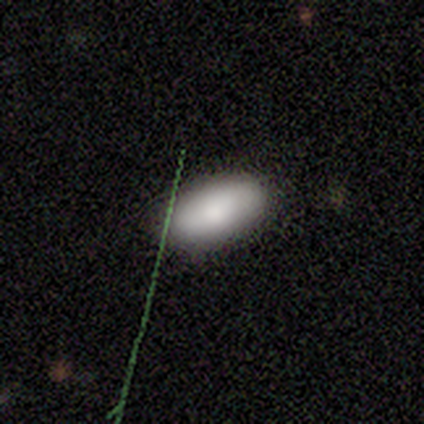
Q: Smooth or featured?
A: smooth (88%); runner-up: star or artifact (12%)
Q: How rounded?
A: in between (100%)
Q: Merging?
A: none (100%)